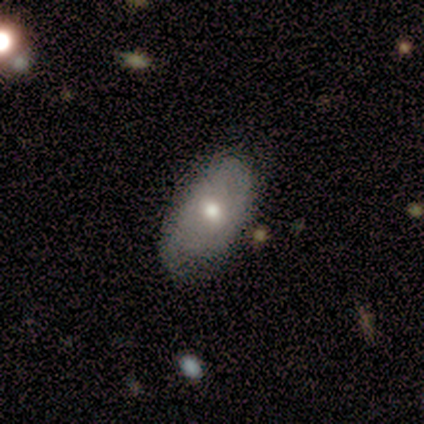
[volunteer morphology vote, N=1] A smooth galaxy with no disk features (100%) that is in between round and cigar-shaped (100%).

Vote fractions:
- Smooth or featured? smooth: 100% / featured or disk: 0% / star or artifact: 0%
- How rounded? in between: 100% / round: 0% / cigar-shaped: 0%
- Merging? none: 100% / minor disturbance: 0% / major disturbance: 0% / merger: 0%